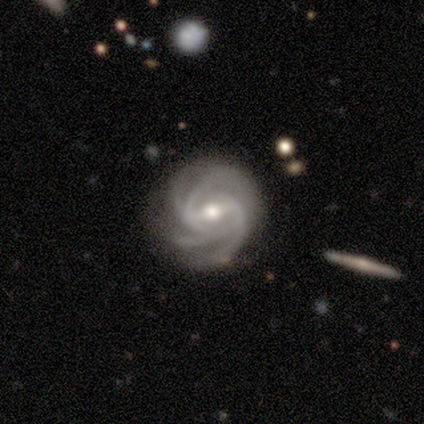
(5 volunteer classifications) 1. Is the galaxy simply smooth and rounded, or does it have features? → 100% featured or disk, 0% smooth, 0% star or artifact.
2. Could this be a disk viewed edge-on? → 100% no, 0% yes.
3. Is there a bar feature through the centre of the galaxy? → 60% strong, 20% weak, 20% no.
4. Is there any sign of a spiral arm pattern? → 100% yes, 0% no.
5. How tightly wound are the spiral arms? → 60% medium, 40% tight, 0% loose.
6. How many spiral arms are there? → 80% 4, 20% 2, 0% 1, 0% 3, 0% more than 4, 0% can't tell.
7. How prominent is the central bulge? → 60% small, 40% moderate, 0% dominant, 0% large, 0% none.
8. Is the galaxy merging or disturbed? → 100% none, 0% minor disturbance, 0% major disturbance, 0% merger.